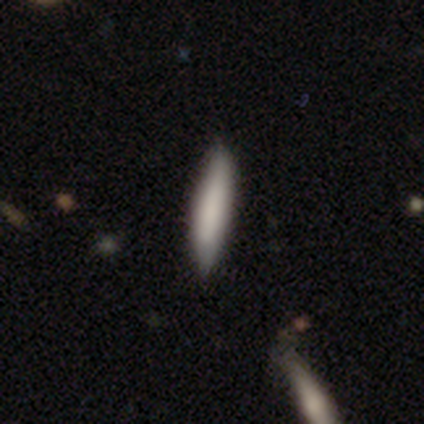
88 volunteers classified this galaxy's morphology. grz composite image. It shows a smooth galaxy with no disk features (80%) that is cigar-shaped (90%). Merging: none (80%).